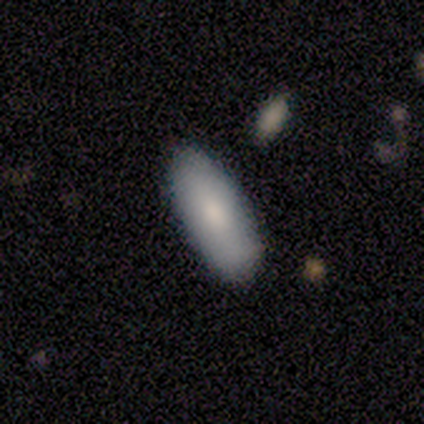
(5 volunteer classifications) Smooth or featured? smooth (80%)
How rounded? in between (75%)
Merging? none (50%, tied with minor disturbance)